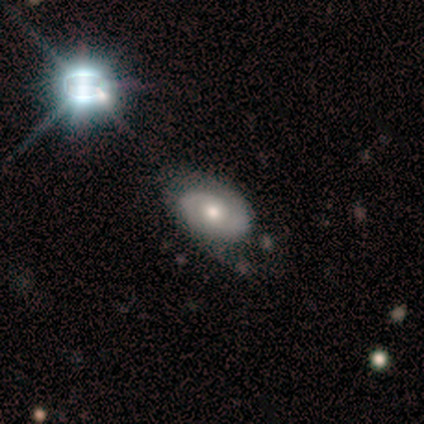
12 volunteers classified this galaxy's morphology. featured or disk 83%, smooth 8%, star or artifact 8%. Down the decision tree: edge-on disk — no (100%); bar — no (90%); spiral arms — yes (90%); spiral arm count — 2 (89%); spiral winding — tight (78%); bulge size — moderate (50%); merging — none (73%).